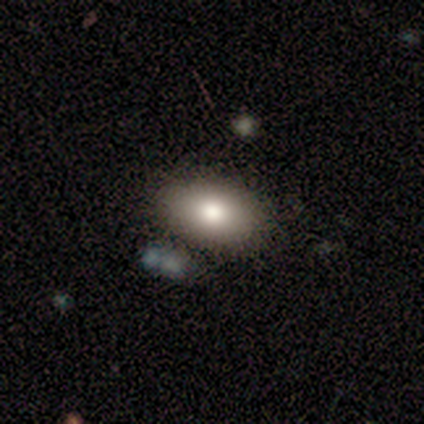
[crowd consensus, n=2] Smooth or featured?
  - smooth: 100% *
  - featured or disk: 0%
  - star or artifact: 0%
How rounded?
  - round: 100% *
  - in between: 0%
  - cigar-shaped: 0%
Merging?
  - none: 50% * (tied)
  - minor disturbance: 50% * (tied)
  - major disturbance: 0%
  - merger: 0%